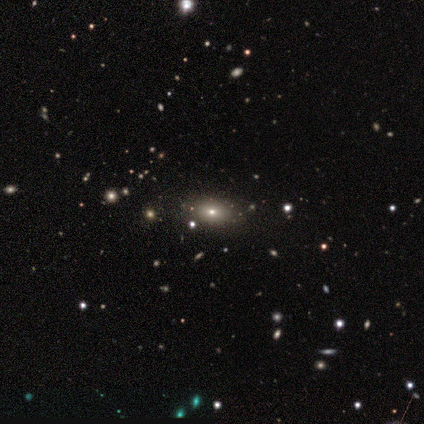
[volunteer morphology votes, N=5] smooth 60%, star or artifact 40%, featured or disk 0%. Down the decision tree: how rounded — in between (67%); merging — none (100%).